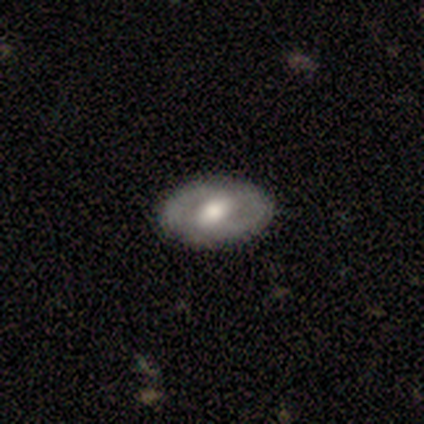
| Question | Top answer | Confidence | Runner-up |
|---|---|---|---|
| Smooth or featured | featured or disk | 60% | smooth (40%) |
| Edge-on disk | no | 100% | — |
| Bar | weak | 100% | — |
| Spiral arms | yes | 67% | no (33%) |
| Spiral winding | tight | 50% | tied: medium (50%) |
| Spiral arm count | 2 | 100% | — |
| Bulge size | moderate | 67% | large (33%) |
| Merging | none | 60% | minor disturbance (20%) |